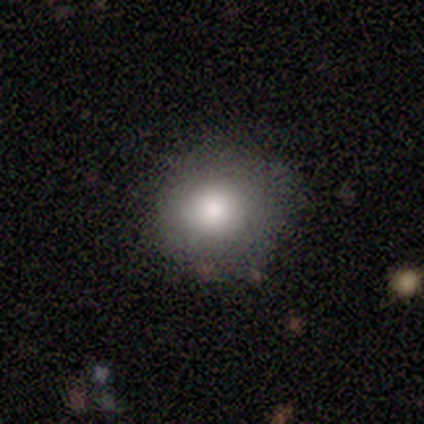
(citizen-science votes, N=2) This appears to be a smooth galaxy with no disk features (100%) that is round (100%). Merging: none (100%).